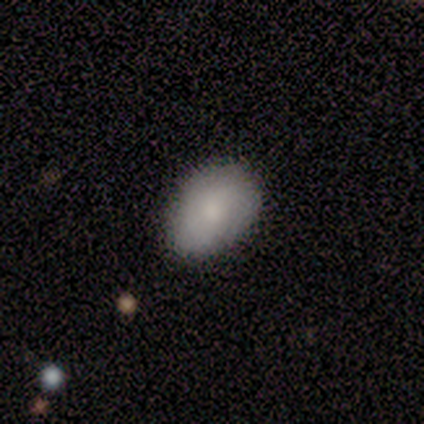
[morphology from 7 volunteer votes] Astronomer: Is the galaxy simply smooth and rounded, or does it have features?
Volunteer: smooth — 57% (runner-up: featured or disk, 43%).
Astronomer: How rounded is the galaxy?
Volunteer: in between — 100%.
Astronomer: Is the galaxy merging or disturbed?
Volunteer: none — 71%.